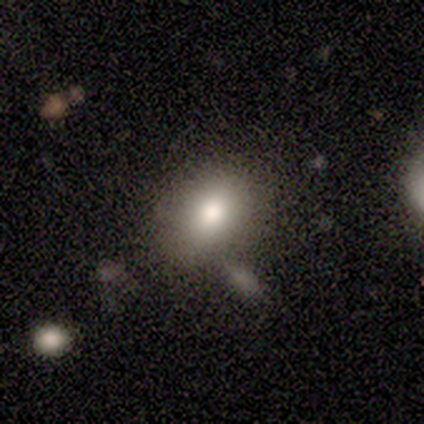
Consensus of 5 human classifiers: Smooth or featured: smooth — 80% (featured or disk — 20%)
How rounded: in between — 100%
Merging: none — 80% (merger — 20%)